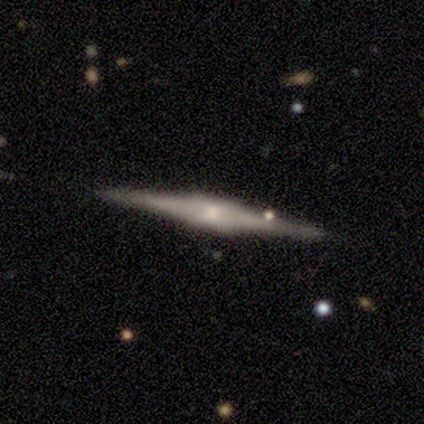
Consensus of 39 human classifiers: A featured or disk galaxy (85%) viewed edge-on (97%) with a boxy central bulge (56%).

Vote fractions:
- Smooth or featured? featured or disk: 85% / smooth: 10% / star or artifact: 5%
- Edge-on disk? yes: 97% / no: 3%
- Edge-on bulge? boxy: 56% / rounded: 38% / none: 6%
- Merging? none: 89% / minor disturbance: 5% / major disturbance: 3% / merger: 3%